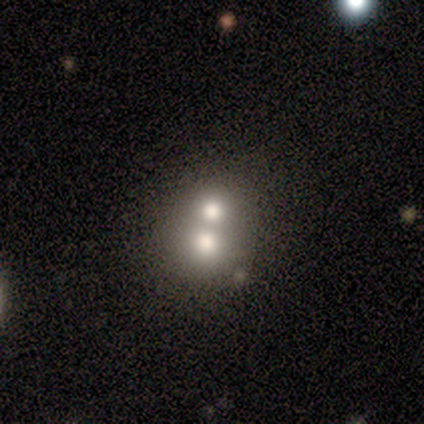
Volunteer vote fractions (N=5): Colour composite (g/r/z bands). It shows a smooth galaxy with no disk features (60%) that is round (67%). Merging: merger (60%).